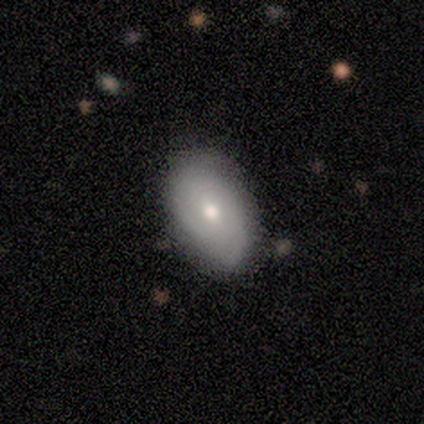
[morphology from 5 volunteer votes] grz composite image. It shows a smooth galaxy with no disk features (60%) that is in between round and cigar-shaped (67%). Merging: none (80%).